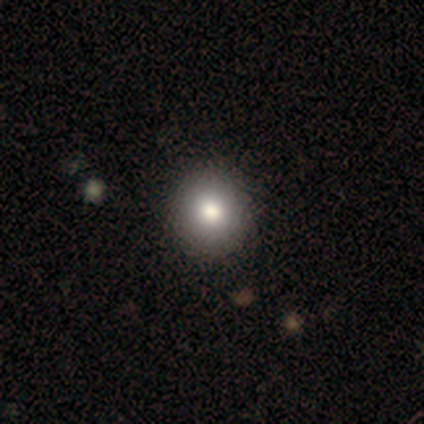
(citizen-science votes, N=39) smooth-or-featured: smooth: 87% | star or artifact: 10% | featured or disk: 3%
  how-rounded: round: 97% | in between: 3% | cigar-shaped: 0%
  merging: none: 74% | minor disturbance: 3% | major disturbance: 0% | merger: 0%